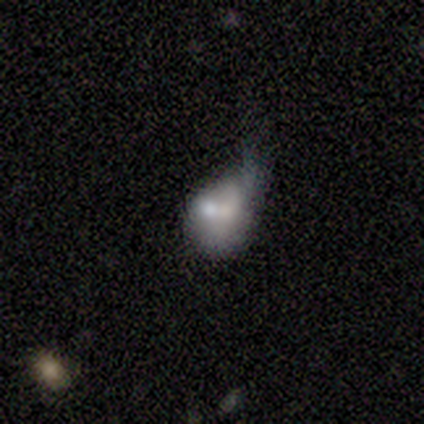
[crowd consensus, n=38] smooth-or-featured: smooth: 45% (tied) | featured or disk: 45% (tied) | star or artifact: 11%
  how-rounded: in between: 65% | round: 35% | cigar-shaped: 0%
  merging: minor disturbance: 44% | merger: 26% | major disturbance: 24% | none: 6%